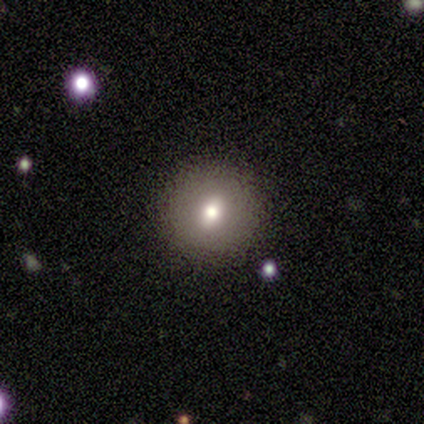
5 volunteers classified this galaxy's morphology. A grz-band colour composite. It shows a featured or disk galaxy (60%) with no bar (67%), no spiral arms (100%) and a moderate central bulge (67%). Merging: none (60%).